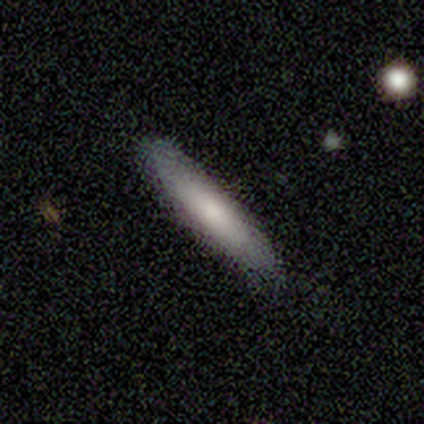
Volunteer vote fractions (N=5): Overall: smooth (80%). How rounded: cigar-shaped (75%). Merging: none (100%).